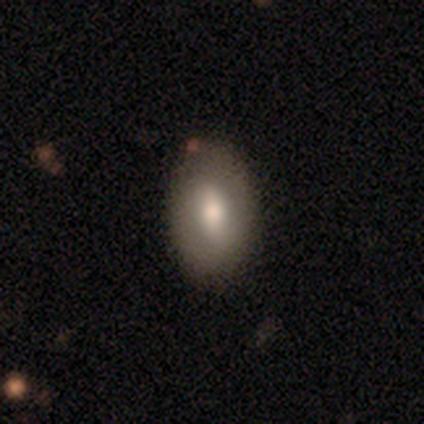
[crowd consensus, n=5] smooth_or_featured: smooth (p=0.60) [alt: featured or disk p=0.40]
how_rounded: in between (p=1.00)
merging: none (p=0.60) [alt: minor disturbance p=0.40]